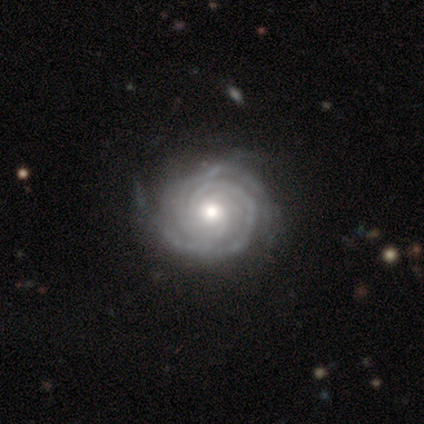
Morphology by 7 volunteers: smooth_or_featured: featured or disk (p=0.86) [alt: star or artifact p=0.14]
disk_edge_on: no (p=1.00)
bar: no (p=0.83) [alt: weak p=0.17]
has_spiral_arms: yes (p=1.00)
spiral_winding: tight (p=1.00)
spiral_arm_count: 2 (p=0.33) [tied with: 3 p=0.33]
bulge_size: moderate (p=1.00)
merging: none (p=0.83) [alt: minor disturbance p=0.17]